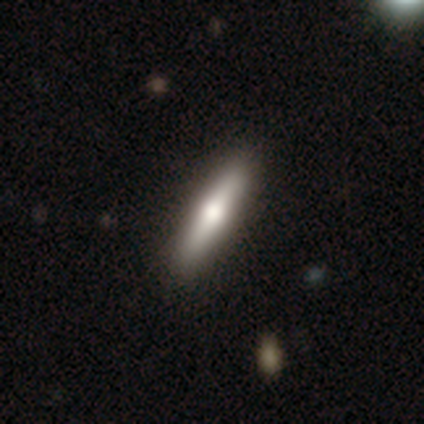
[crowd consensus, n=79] Smooth or featured? 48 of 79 (61%) said smooth. How rounded? 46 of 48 (96%) said cigar-shaped. Merging? 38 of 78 (49%) said none.